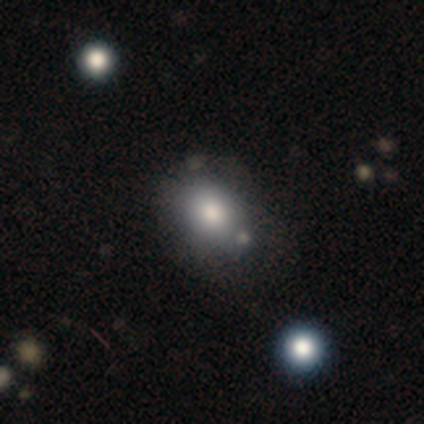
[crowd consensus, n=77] Morphology: type=smooth (88%); roundness=round (50%); merging=none (36%).